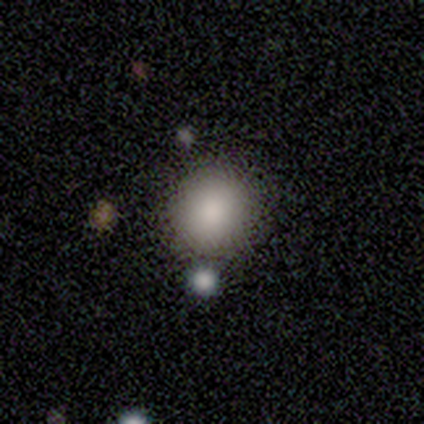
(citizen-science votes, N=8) smooth_or_featured: smooth (p=1.00)
how_rounded: round (p=0.88) [alt: in between p=0.12]
merging: none (p=0.88) [alt: minor disturbance p=0.12]